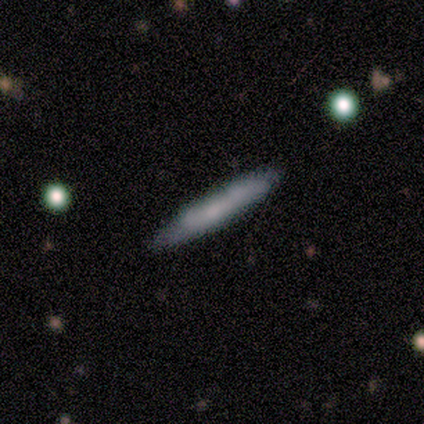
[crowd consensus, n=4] This is clearly a smooth galaxy (100%). How rounded: clearly cigar-shaped (100%). Merging: clearly none (100%).